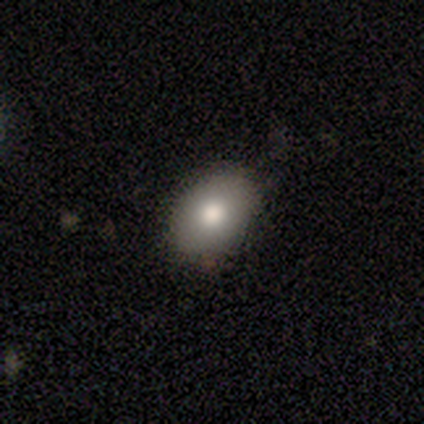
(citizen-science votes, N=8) Morphology: type=smooth (75%); roundness=round (50%, tied with in between); merging=none (100%).